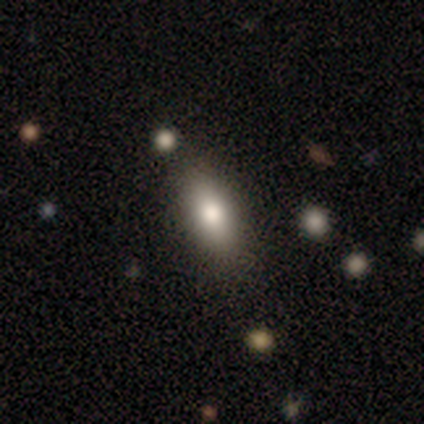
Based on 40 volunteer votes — This appears to be a smooth galaxy with no disk features (78%) that is in between round and cigar-shaped (77%). Merging: none (85%).